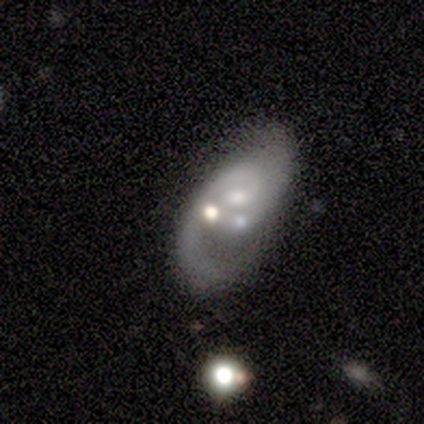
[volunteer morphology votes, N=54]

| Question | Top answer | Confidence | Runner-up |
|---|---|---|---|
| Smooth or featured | featured or disk | 83% | smooth (11%) |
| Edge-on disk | no | 100% | — |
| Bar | no | 84% | weak (13%) |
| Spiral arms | yes | 91% | no (9%) |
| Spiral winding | medium | 49% | tight (27%) |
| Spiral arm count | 1 | 49% | 2 (46%) |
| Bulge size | moderate | 44% | small (40%) |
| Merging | merger | 37% | major disturbance (25%) |